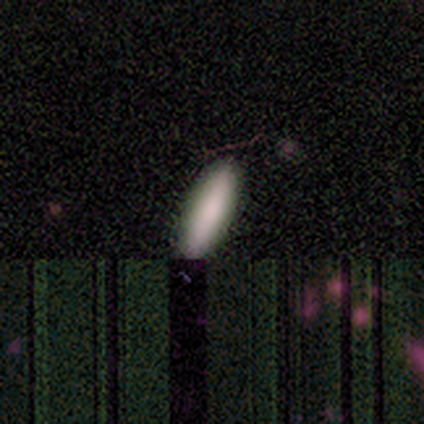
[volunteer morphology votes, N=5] smooth 100%, featured or disk 0%, star or artifact 0%. Down the decision tree: how rounded — in between (60%); merging — none (100%).